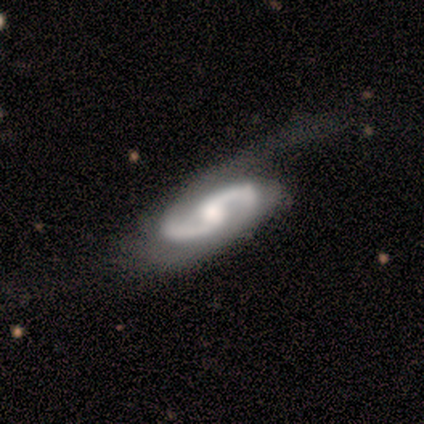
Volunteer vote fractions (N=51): This appears to be a featured or disk galaxy (88%) with a weak bar (46%, tied with no), 2 (98%) medium (56%) spiral arms (100%) and a moderate central bulge (49%). Merging: none (41%).